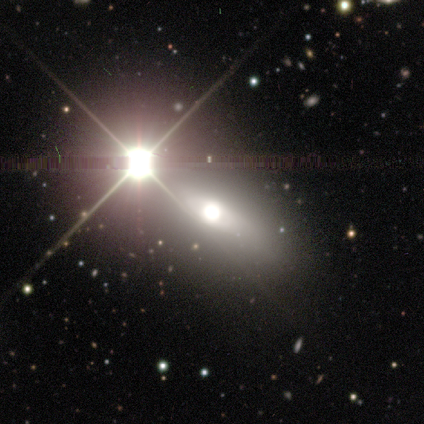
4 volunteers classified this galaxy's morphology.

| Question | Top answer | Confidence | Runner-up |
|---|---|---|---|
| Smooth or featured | star or artifact | 100% | — |